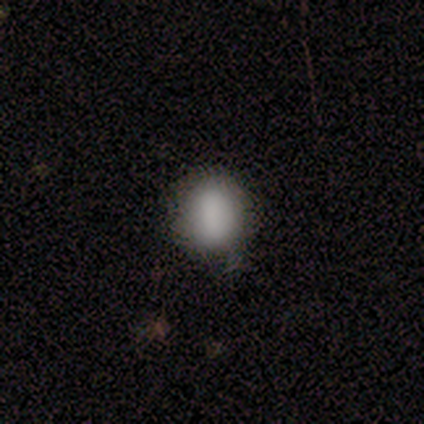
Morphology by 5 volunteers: Smooth or featured: smooth — 100%
How rounded: round — 60% (in between — 40%)
Merging: none — 80% (minor disturbance — 20%)